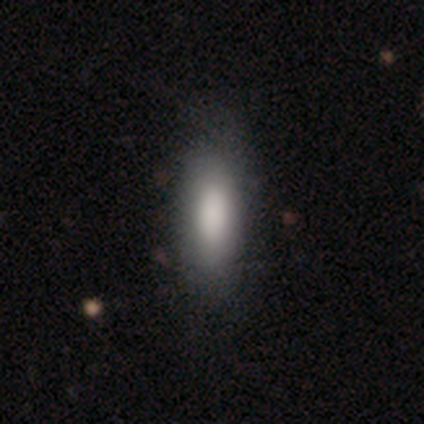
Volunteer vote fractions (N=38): Q: Smooth or featured?
A: smooth (79%); runner-up: featured or disk (18%)
Q: How rounded?
A: in between (77%); runner-up: cigar-shaped (23%)
Q: Merging?
A: none (62%); runner-up: minor disturbance (14%)